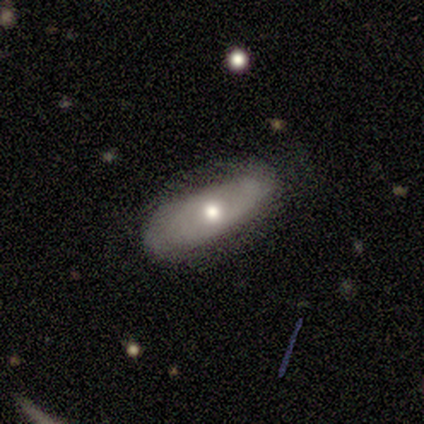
Morphology: type=featured or disk (80%); edge-on=no (75%); bar=no (100%); spiral arms=no (100%); bulge=moderate (67%); merging=none (60%).